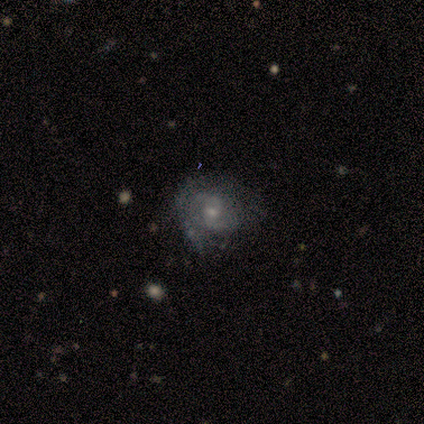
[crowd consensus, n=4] This appears to be a featured or disk galaxy (75%) with no bar (100%), 2 (100%) loose (100%) spiral arms (67%) and a moderate central bulge (67%). Merging: none (75%).